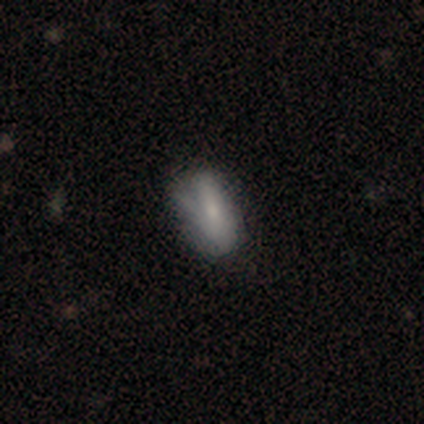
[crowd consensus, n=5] Overall: smooth (60%; featured or disk 40%). How rounded: in between (67%; round 33%). Merging: none (80%).